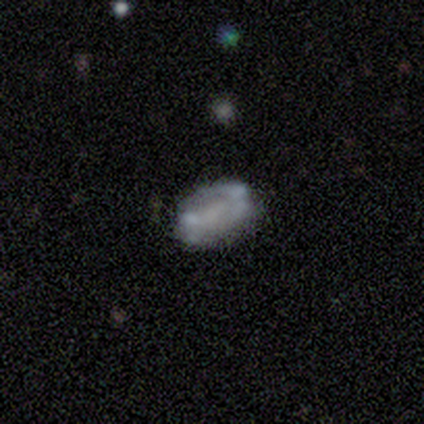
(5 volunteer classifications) A featured or disk galaxy (60%) with no bar (67%), no spiral arms (67%) and no central bulge (100%).

Vote fractions:
- Smooth or featured? featured or disk: 60% / smooth: 40% / star or artifact: 0%
- Edge-on disk? no: 100% / yes: 0%
- Bar? no: 67% / weak: 33% / strong: 0%
- Spiral arms? no: 67% / yes: 33%
- Bulge size? none: 100% / dominant: 0% / large: 0% / moderate: 0% / small: 0%
- Merging? none: 60% / minor disturbance: 40% / major disturbance: 0% / merger: 0%